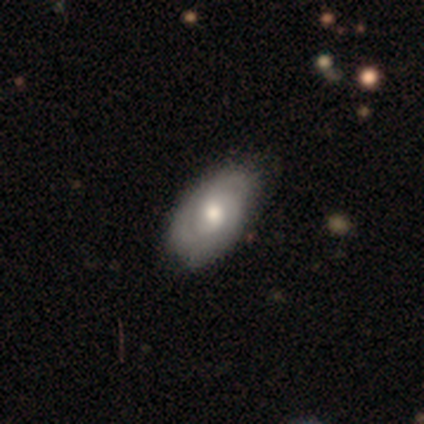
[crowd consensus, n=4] Smooth or featured?
  - featured or disk: 75% *
  - smooth: 25%
  - star or artifact: 0%
Edge-on disk?
  - no: 100% *
  - yes: 0%
Bar?
  - no: 67% *
  - weak: 33%
  - strong: 0%
Spiral arms?
  - yes: 100% *
  - no: 0%
Spiral winding?
  - medium: 67% *
  - tight: 33%
  - loose: 0%
Spiral arm count?
  - 3: 100% *
  - 1: 0%
  - 2: 0%
  - 4: 0%
  - more than 4: 0%
  - can't tell: 0%
Bulge size?
  - moderate: 100% *
  - dominant: 0%
  - large: 0%
  - small: 0%
  - none: 0%
Merging?
  - none: 100% *
  - minor disturbance: 0%
  - major disturbance: 0%
  - merger: 0%